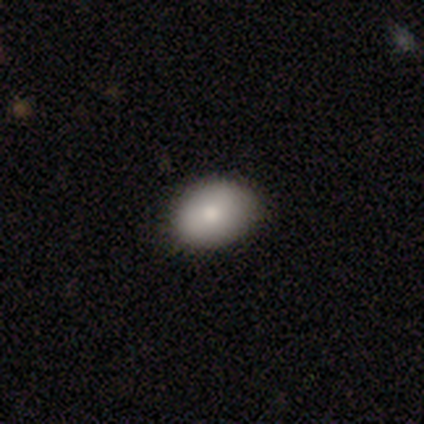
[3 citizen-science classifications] Overall: smooth (67%; featured or disk 33%). How rounded: round (50%, tied with in between). Merging: none (100%).